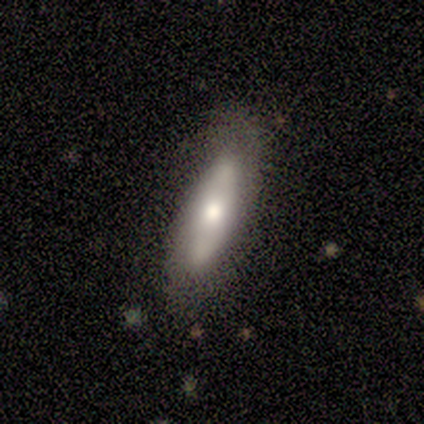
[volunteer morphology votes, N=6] A featured or disk galaxy (67%) with a weak bar (67%), 1 (33%, tied with 2 and can't tell) loose (67%) spiral arms (100%) and a moderate central bulge (100%).

Vote fractions:
- Smooth or featured? featured or disk: 67% / smooth: 33% / star or artifact: 0%
- Edge-on disk? no: 75% / yes: 25%
- Bar? weak: 67% / no: 33% / strong: 0%
- Spiral arms? yes: 100% / no: 0%
- Spiral winding? loose: 67% / medium: 33% / tight: 0%
- Spiral arm count? 1: 33% (tied) / 2: 33% (tied) / can't tell: 33% (tied) / 3: 0% / 4: 0% / more than 4: 0%
- Bulge size? moderate: 100% / dominant: 0% / large: 0% / small: 0% / none: 0%
- Merging? none: 50% / minor disturbance: 33% / major disturbance: 17% / merger: 0%